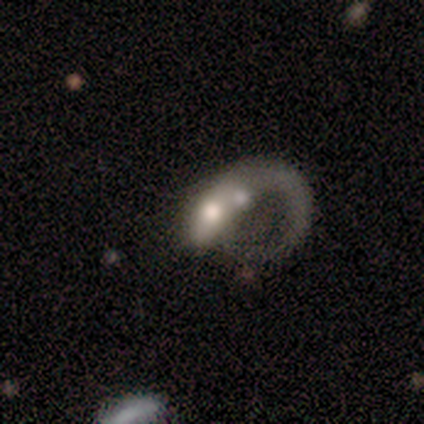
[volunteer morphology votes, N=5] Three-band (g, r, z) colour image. It shows a featured or disk galaxy (60%) with no bar (67%), 1 (67%) loose (100%) spiral arms (100%) and a moderate central bulge (67%). Merging: merger (60%).